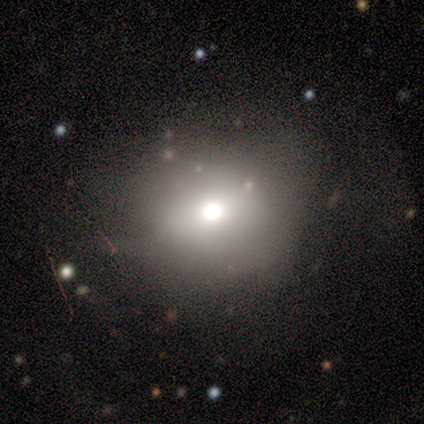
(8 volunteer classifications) Smooth or featured? 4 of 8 (50%) said featured or disk. Edge-on disk? 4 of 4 (100%) said no. Bar? 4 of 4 (100%) said no. Spiral arms? 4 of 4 (100%) said no. Bulge size? 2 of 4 (50%) said large. Merging? 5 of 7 (71%) said none.